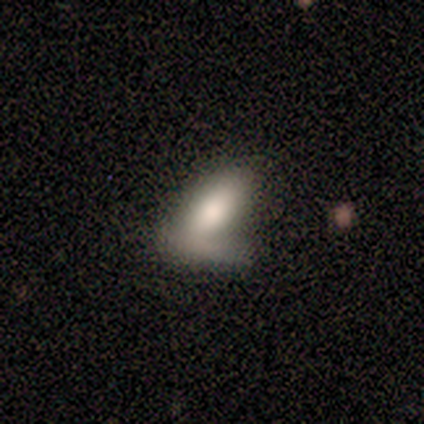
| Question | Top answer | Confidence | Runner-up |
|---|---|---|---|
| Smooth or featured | smooth | 60% | featured or disk (20%) |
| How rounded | in between | 67% | cigar-shaped (33%) |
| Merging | none | 50% | major disturbance (25%) |